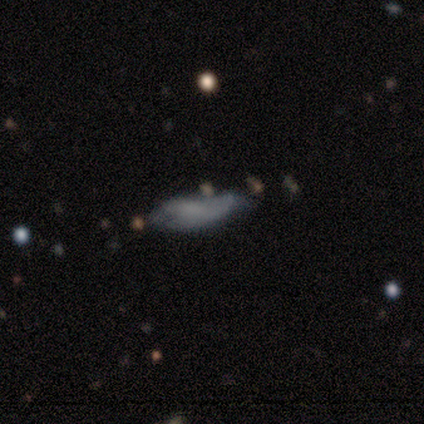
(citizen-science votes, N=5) This is clearly a smooth galaxy (80%). How rounded: possibly in between (50%, tied with cigar-shaped). Merging: marginally major disturbance (40%).